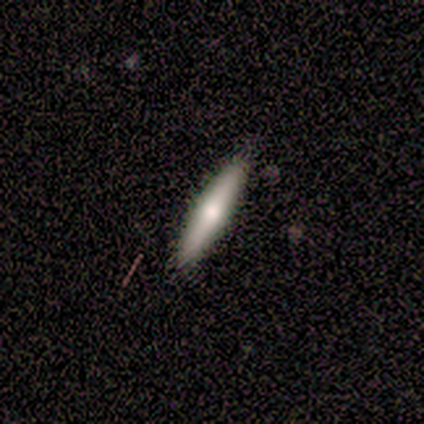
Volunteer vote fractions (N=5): This is likely a smooth galaxy (60%). How rounded: clearly cigar-shaped (100%). Merging: clearly none (100%).